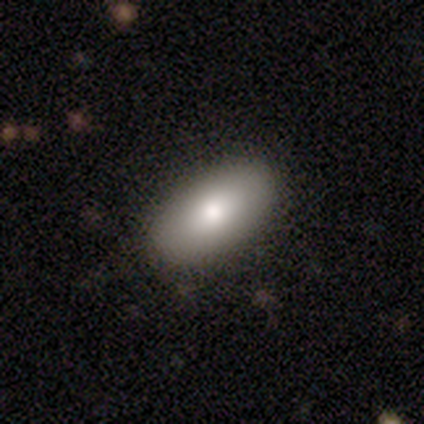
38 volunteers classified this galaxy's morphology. A smooth galaxy with no disk features (82%) that is in between round and cigar-shaped (87%).

Vote fractions:
- Smooth or featured? smooth: 82% / featured or disk: 13% / star or artifact: 5%
- How rounded? in between: 87% / cigar-shaped: 10% / round: 3%
- Merging? none: 78% / minor disturbance: 19% / major disturbance: 3% / merger: 0%